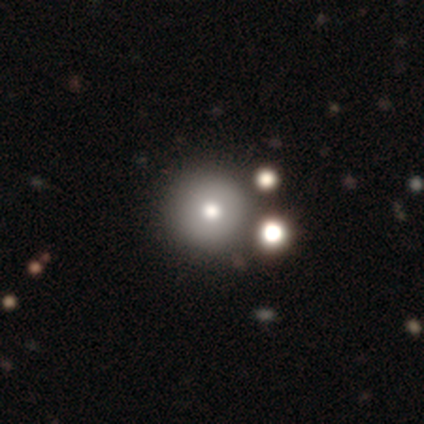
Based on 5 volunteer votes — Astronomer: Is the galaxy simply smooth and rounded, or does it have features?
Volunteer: smooth — 60% (runner-up: star or artifact, 40%).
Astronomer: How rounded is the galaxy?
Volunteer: round — 100%.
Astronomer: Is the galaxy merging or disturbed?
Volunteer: none — 100%.